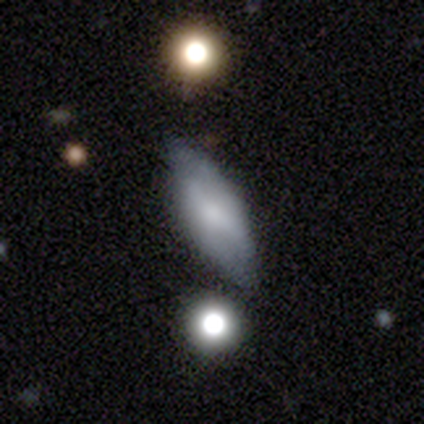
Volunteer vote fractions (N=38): Q: Smooth or featured?
A: smooth (58%); runner-up: featured or disk (37%)
Q: How rounded?
A: in between (68%); runner-up: cigar-shaped (27%)
Q: Merging?
A: none (69%); runner-up: minor disturbance (19%)